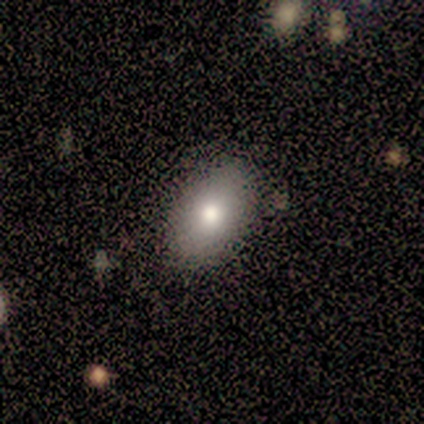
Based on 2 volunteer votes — smooth-or-featured: smooth: 100% | featured or disk: 0% | star or artifact: 0%
  how-rounded: in between: 100% | round: 0% | cigar-shaped: 0%
  merging: none: 50% (tied) | minor disturbance: 50% (tied) | major disturbance: 0% | merger: 0%